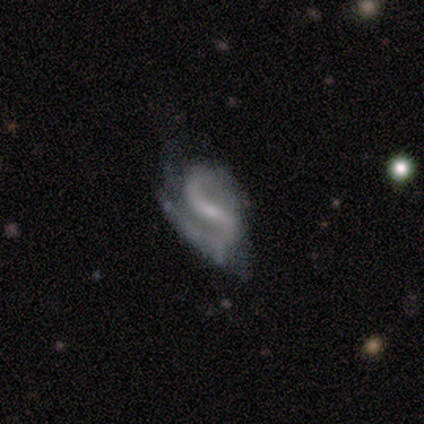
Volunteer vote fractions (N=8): smooth-or-featured: featured or disk: 88% | smooth: 12% | star or artifact: 0%
  disk-edge-on: no: 86% | yes: 14%
    bar: strong: 50% | no: 33% | weak: 17%
    has-spiral-arms: yes: 100% | no: 0%
      spiral-winding: medium: 67% | tight: 17% | loose: 17%
      spiral-arm-count: 2: 100% | 1: 0% | 3: 0% | 4: 0% | more than 4: 0% | can't tell: 0%
    bulge-size: small: 50% | none: 33% | moderate: 17% | dominant: 0% | large: 0%
  merging: none: 62% | minor disturbance: 25% | major disturbance: 12% | merger: 0%